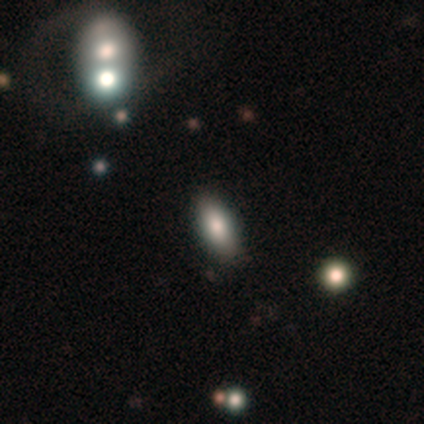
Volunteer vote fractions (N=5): Smooth or featured?
  - smooth: 60% *
  - star or artifact: 40%
  - featured or disk: 0%
How rounded?
  - in between: 100% *
  - round: 0%
  - cigar-shaped: 0%
Merging?
  - none: 67% *
  - minor disturbance: 33%
  - major disturbance: 0%
  - merger: 0%